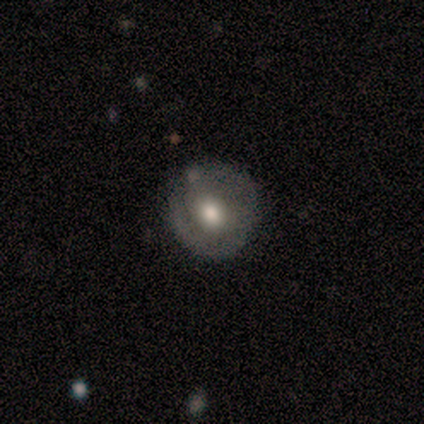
Q: Smooth or featured?
A: featured or disk (67%); runner-up: smooth (33%)
Q: Edge-on disk?
A: no (100%)
Q: Bar?
A: no (100%)
Q: Spiral arms?
A: yes (50%); tied with: no (50%)
Q: Spiral winding?
A: tight (100%)
Q: Spiral arm count?
A: 1 (50%); tied with: 3 (50%)
Q: Bulge size?
A: moderate (100%)
Q: Merging?
A: none (50%); tied with: minor disturbance (50%)